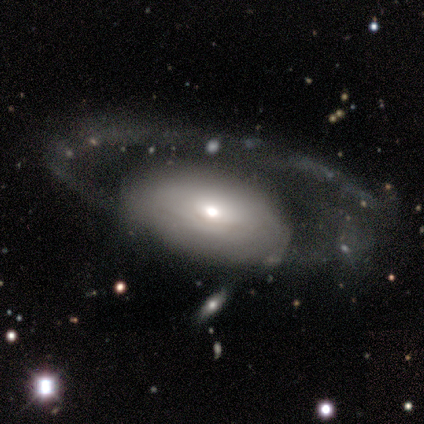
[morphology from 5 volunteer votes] Smooth or featured?
  - featured or disk: 80% *
  - smooth: 20%
  - star or artifact: 0%
Edge-on disk?
  - no: 75% *
  - yes: 25%
Bar?
  - no: 100% *
  - strong: 0%
  - weak: 0%
Spiral arms?
  - no: 100% *
  - yes: 0%
Bulge size?
  - moderate: 100% *
  - dominant: 0%
  - large: 0%
  - small: 0%
  - none: 0%
Merging?
  - none: 40% * (tied)
  - major disturbance: 40% * (tied)
  - minor disturbance: 20%
  - merger: 0%